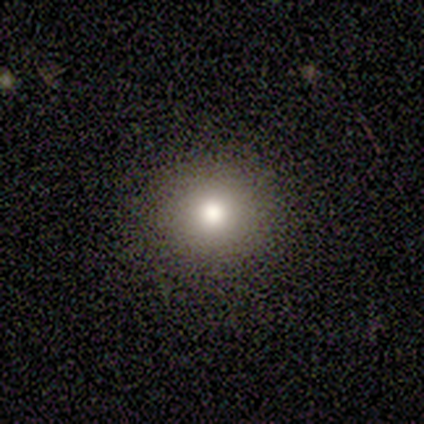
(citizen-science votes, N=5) smooth-or-featured: smooth: 40% (tied) | featured or disk: 40% (tied) | star or artifact: 20%
  how-rounded: round: 100% | in between: 0% | cigar-shaped: 0%
  merging: none: 100% | minor disturbance: 0% | major disturbance: 0% | merger: 0%